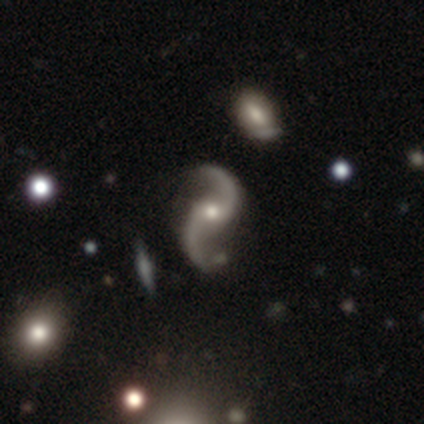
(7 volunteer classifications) Morphology: type=featured or disk (100%); edge-on=no (100%); bar=weak (43%, tied with no); spiral arms=yes (100%); winding=loose (86%); arm count=2 (100%); bulge=moderate (57%); merging=none (71%).